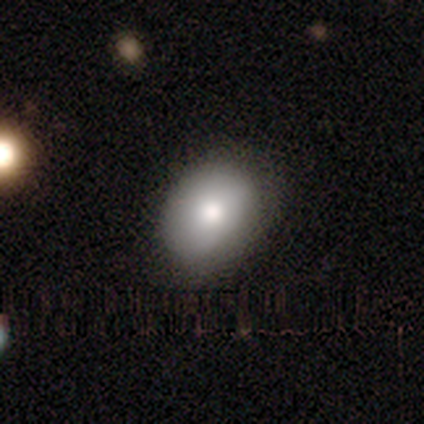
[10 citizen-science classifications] smooth-or-featured: smooth: 90% | featured or disk: 10% | star or artifact: 0%
  how-rounded: in between: 89% | round: 11% | cigar-shaped: 0%
  merging: none: 90% | minor disturbance: 10% | major disturbance: 0% | merger: 0%